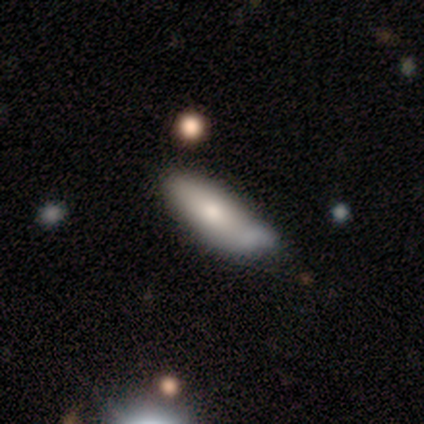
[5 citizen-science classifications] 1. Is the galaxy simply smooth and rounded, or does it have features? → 80% smooth, 20% featured or disk, 0% star or artifact.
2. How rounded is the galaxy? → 100% in between, 0% round, 0% cigar-shaped.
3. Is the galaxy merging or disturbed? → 60% minor disturbance, 20% none, 20% major disturbance, 0% merger.